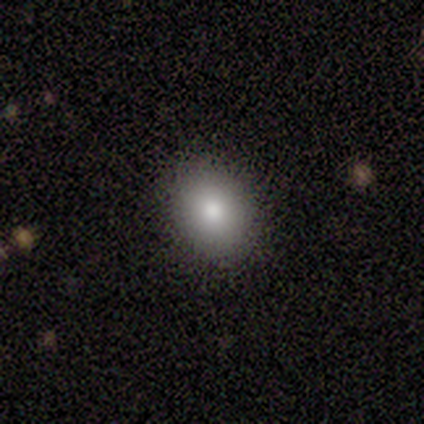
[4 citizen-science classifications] Smooth or featured?
  - smooth: 50% * (tied)
  - featured or disk: 50% * (tied)
  - star or artifact: 0%
How rounded?
  - round: 50% * (tied)
  - in between: 50% * (tied)
  - cigar-shaped: 0%
Merging?
  - none: 100% *
  - minor disturbance: 0%
  - major disturbance: 0%
  - merger: 0%